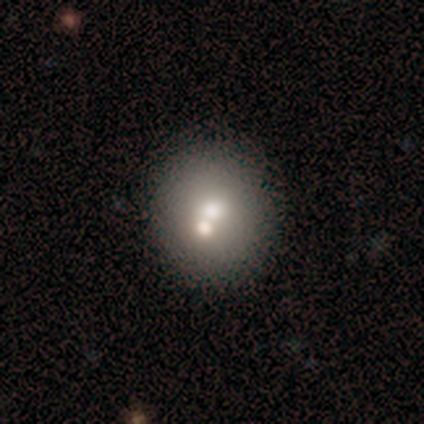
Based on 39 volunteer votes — smooth_or_featured: smooth (p=0.67) [alt: featured or disk p=0.23]
how_rounded: round (p=0.73) [alt: in between p=0.23]
merging: none (p=0.60) [alt: merger p=0.29]